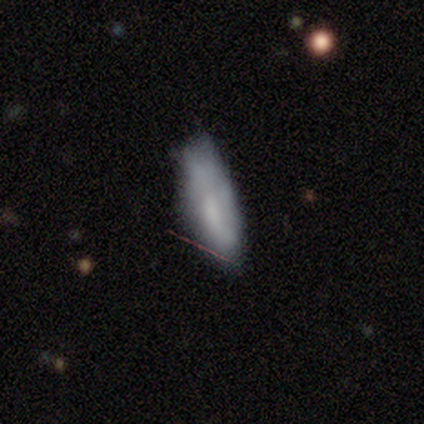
Smooth or featured?
  - smooth: 78% *
  - featured or disk: 22%
  - star or artifact: 0%
How rounded?
  - in between: 57% *
  - cigar-shaped: 43%
  - round: 0%
Merging?
  - none: 67% *
  - minor disturbance: 22%
  - major disturbance: 11%
  - merger: 0%